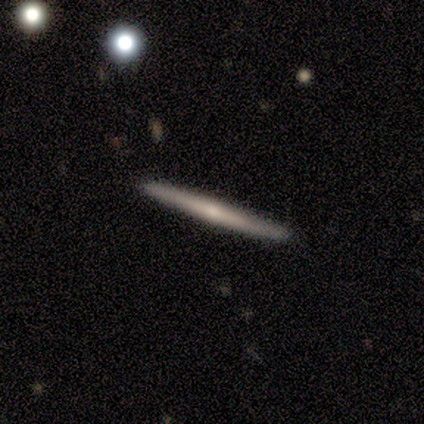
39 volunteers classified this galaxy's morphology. Smooth or featured: featured or disk — 62% (smooth — 36%)
Edge-on disk: yes — 100%
Edge-on bulge: none — 50% (tied with rounded — 50%)
Merging: none — 68%